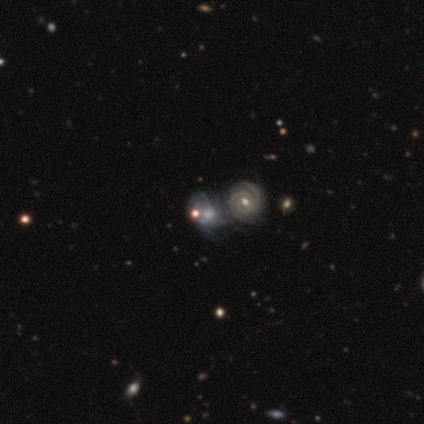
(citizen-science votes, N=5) A featured or disk galaxy (100%) with a weak bar (40%, tied with no), 2 (40%, tied with 3) tight (60%) spiral arms (100%) and a moderate central bulge (60%). Merging: merger (60%).